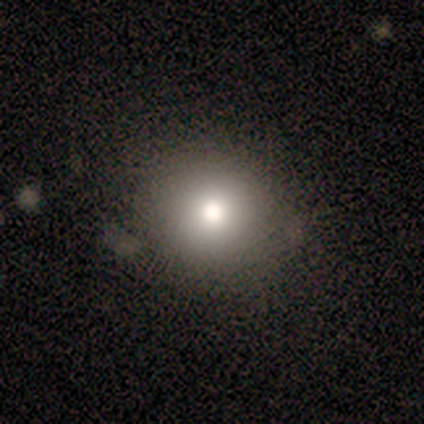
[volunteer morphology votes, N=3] Q: Smooth or featured?
A: smooth (100%)
Q: How rounded?
A: round (100%)
Q: Merging?
A: none (100%)